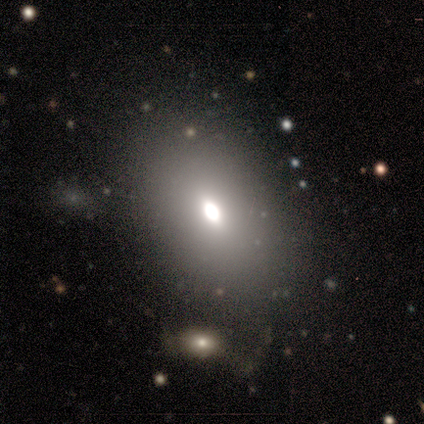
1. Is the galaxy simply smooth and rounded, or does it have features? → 80% smooth, 20% featured or disk, 0% star or artifact.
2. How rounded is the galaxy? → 50% round (tied), 50% in between (tied), 0% cigar-shaped.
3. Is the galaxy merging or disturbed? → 100% none, 0% minor disturbance, 0% major disturbance, 0% merger.